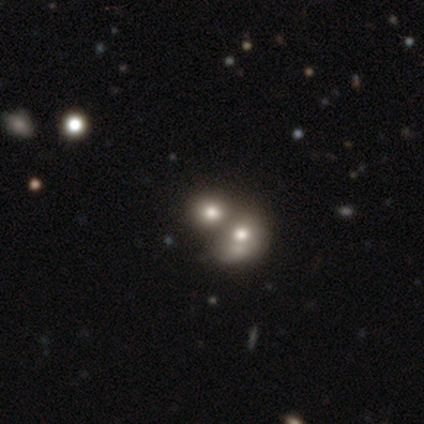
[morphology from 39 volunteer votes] Smooth or featured: smooth — 59% (featured or disk — 21%)
How rounded: round — 83% (in between — 13%)
Merging: merger — 65% (none — 23%)